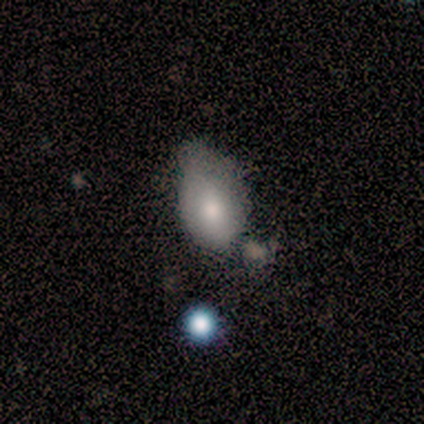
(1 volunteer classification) Smooth or featured: featured or disk — 100%
Edge-on disk: no — 100%
Bar: no — 100%
Spiral arms: no — 100%
Bulge size: moderate — 100%
Merging: minor disturbance — 100%